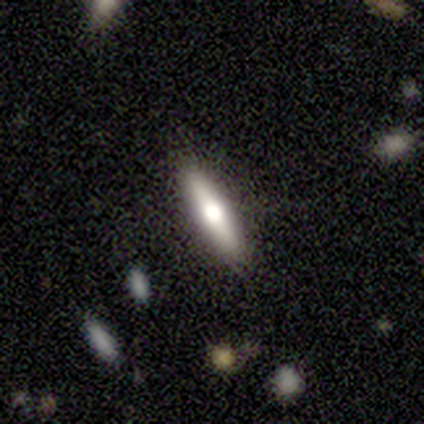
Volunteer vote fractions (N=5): This appears to be a smooth galaxy with no disk features (60%) that is cigar-shaped (67%). Merging: none (100%).